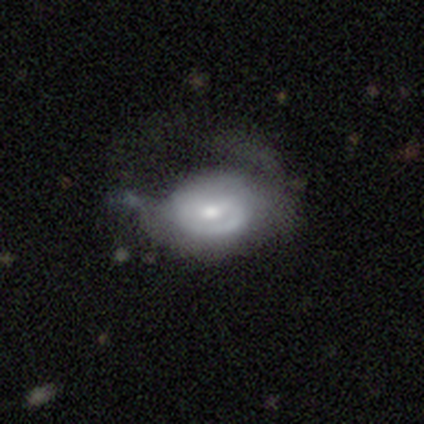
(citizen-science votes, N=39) smooth-or-featured: featured or disk: 67% | smooth: 28% | star or artifact: 5%
  disk-edge-on: no: 100% | yes: 0%
    bar: no: 58% | weak: 35% | strong: 8%
    has-spiral-arms: yes: 62% | no: 38%
      spiral-winding: tight: 62% | medium: 31% | loose: 6%
      spiral-arm-count: 1: 38% | can't tell: 31% | 2: 19% | 3: 12% | 4: 0% | more than 4: 0%
    bulge-size: moderate: 54% | small: 35% | large: 12% | dominant: 0% | none: 0%
  merging: major disturbance: 51% | none: 30% | minor disturbance: 19% | merger: 0%